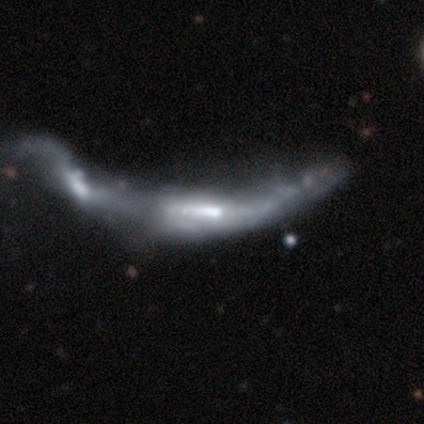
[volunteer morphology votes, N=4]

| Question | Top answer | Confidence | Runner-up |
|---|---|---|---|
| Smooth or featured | featured or disk | 75% | smooth (25%) |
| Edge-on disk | no | 100% | — |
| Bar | strong | 67% | no (33%) |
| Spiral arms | no | 67% | yes (33%) |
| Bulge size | moderate | 67% | large (33%) |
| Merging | merger | 100% | — |